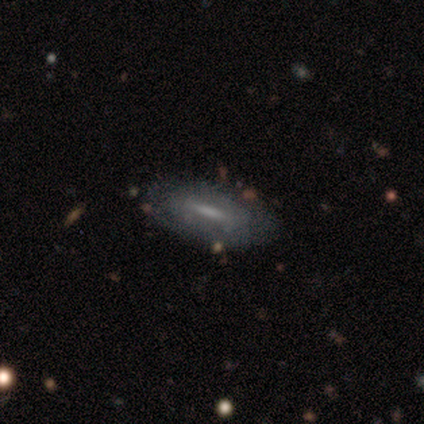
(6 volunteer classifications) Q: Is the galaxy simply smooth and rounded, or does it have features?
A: featured or disk — 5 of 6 (83%).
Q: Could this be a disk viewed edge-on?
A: no — 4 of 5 (80%).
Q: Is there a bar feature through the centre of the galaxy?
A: weak — 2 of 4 (50%).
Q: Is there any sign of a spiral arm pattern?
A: yes — 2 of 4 (50%, tied with no).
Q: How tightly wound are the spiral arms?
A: medium — 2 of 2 (100%).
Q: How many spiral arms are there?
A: can't tell — 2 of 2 (100%).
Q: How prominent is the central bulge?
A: none — 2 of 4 (50%).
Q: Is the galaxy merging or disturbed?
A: none — 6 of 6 (100%).